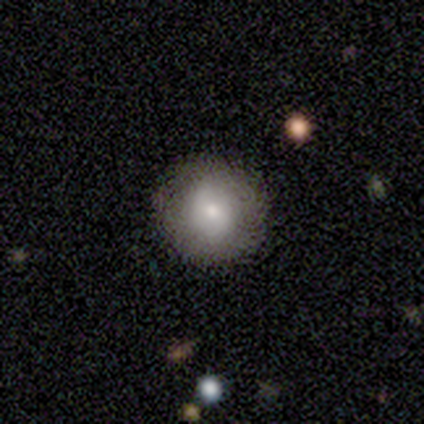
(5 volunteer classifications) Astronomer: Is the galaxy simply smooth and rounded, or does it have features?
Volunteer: smooth — 100%.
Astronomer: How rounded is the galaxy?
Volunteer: round — 100%.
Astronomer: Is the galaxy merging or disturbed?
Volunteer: none — 100%.